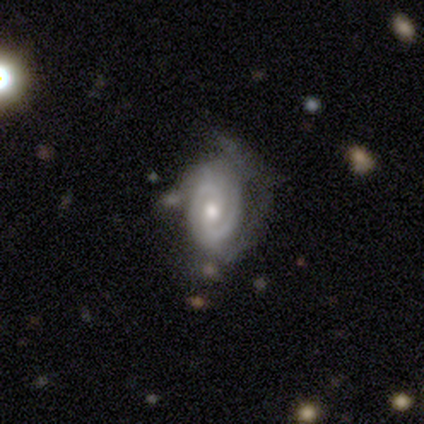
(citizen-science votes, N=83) A featured or disk galaxy (76%) with no bar (61%), 2 (70%) tight (67%) spiral arms (92%) and a moderate central bulge (81%).

Vote fractions:
- Smooth or featured? featured or disk: 76% / smooth: 14% / star or artifact: 10%
- Edge-on disk? no: 98% / yes: 2%
- Bar? no: 61% / weak: 32% / strong: 6%
- Spiral arms? yes: 92% / no: 8%
- Spiral winding? tight: 67% / medium: 28% / loose: 5%
- Spiral arm count? 2: 70% / can't tell: 21% / 3: 5% / 1: 2% / more than 4: 2% / 4: 0%
- Bulge size? moderate: 81% / small: 16% / large: 3% / dominant: 0% / none: 0%
- Merging? none: 44% / major disturbance: 31% / minor disturbance: 23% / merger: 3%